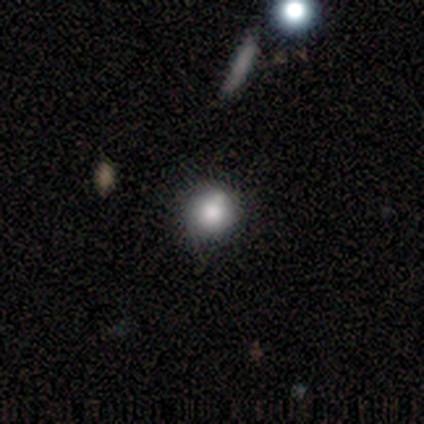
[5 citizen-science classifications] smooth_or_featured: smooth (p=0.60) [alt: featured or disk p=0.40]
how_rounded: round (p=1.00)
merging: none (p=0.80) [alt: minor disturbance p=0.20]